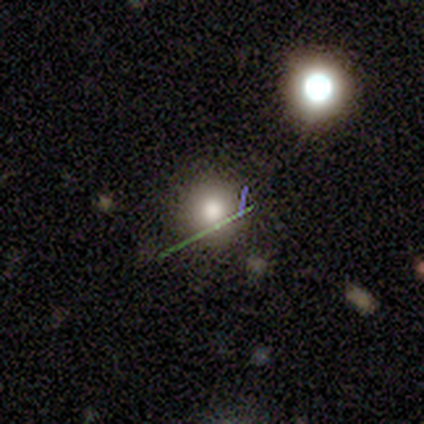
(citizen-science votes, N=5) This appears to be a smooth galaxy with no disk features (40%, tied with star or artifact) that is round (100%). Merging: none (100%).